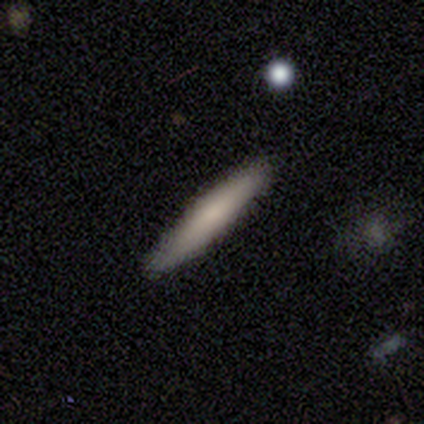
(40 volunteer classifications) A smooth galaxy with no disk features (70%) that is cigar-shaped (82%).

Vote fractions:
- Smooth or featured? smooth: 70% / featured or disk: 28% / star or artifact: 2%
- How rounded? cigar-shaped: 82% / in between: 14% / round: 4%
- Merging? none: 77% / minor disturbance: 15% / major disturbance: 8% / merger: 0%